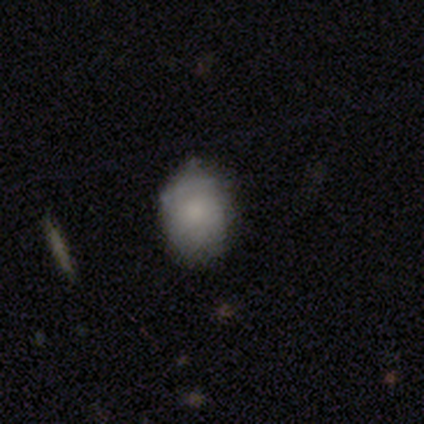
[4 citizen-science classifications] This is possibly a smooth galaxy (50%, tied with featured or disk). How rounded: possibly round (50%, tied with in between). Merging: likely minor disturbance (75%).